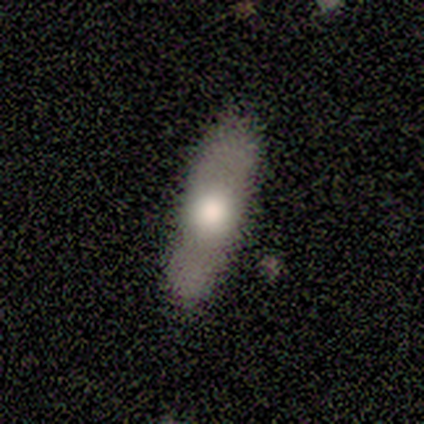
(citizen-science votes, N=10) Volunteers were most divided on "smooth or featured" (2-way tie): smooth: 50%, featured or disk: 50%, star or artifact: 0%. More confident: merging — none (80%); how rounded — cigar-shaped (60%).